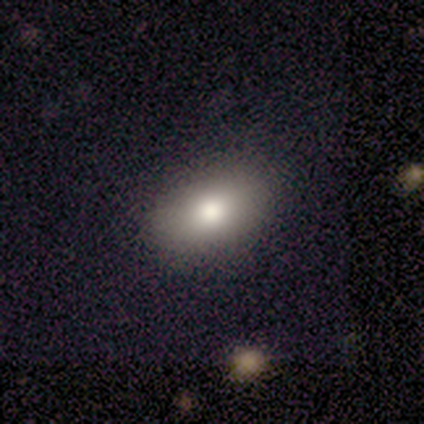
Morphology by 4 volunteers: Smooth or featured?
  - smooth: 100% *
  - featured or disk: 0%
  - star or artifact: 0%
How rounded?
  - in between: 75% *
  - round: 25%
  - cigar-shaped: 0%
Merging?
  - none: 75% *
  - minor disturbance: 25%
  - major disturbance: 0%
  - merger: 0%